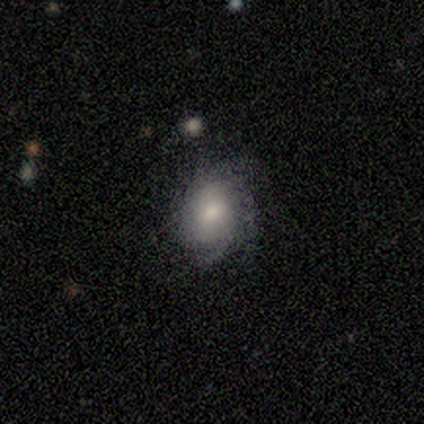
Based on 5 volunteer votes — A featured or disk galaxy (80%) with no bar (100%), tight (50%) spiral arms (100%) and a moderate central bulge (75%). Merging: none (100%).